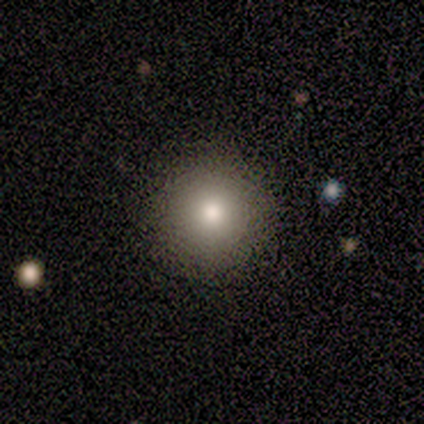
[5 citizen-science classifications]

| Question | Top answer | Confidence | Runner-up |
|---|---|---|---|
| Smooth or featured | star or artifact | 60% | smooth (40%) |